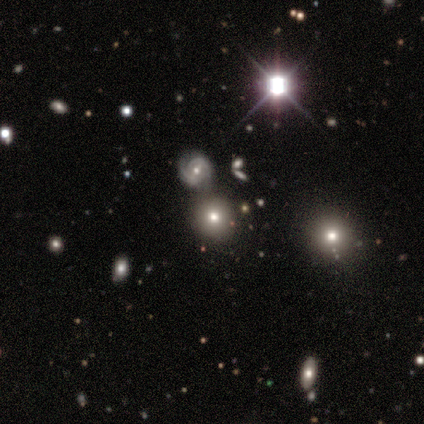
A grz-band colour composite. It shows a smooth galaxy with no disk features (40%, tied with featured or disk) that is round (100%). Merging: none (75%).